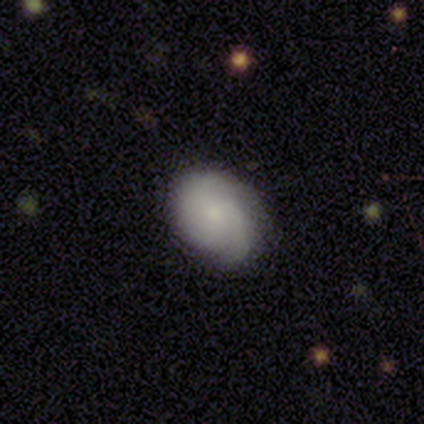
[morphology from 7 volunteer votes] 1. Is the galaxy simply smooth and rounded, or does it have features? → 57% featured or disk, 43% smooth, 0% star or artifact.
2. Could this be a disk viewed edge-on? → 100% no, 0% yes.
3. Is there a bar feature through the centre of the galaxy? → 75% no, 25% strong, 0% weak.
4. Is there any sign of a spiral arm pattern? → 100% yes, 0% no.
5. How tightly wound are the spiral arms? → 50% tight, 25% medium, 25% loose.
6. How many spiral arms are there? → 25% 1 (tied), 25% 2 (tied), 25% 3 (tied), 25% 4 (tied), 0% more than 4, 0% can't tell.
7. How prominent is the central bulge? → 75% small, 25% moderate, 0% dominant, 0% large, 0% none.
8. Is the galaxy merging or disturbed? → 57% minor disturbance, 43% none, 0% major disturbance, 0% merger.